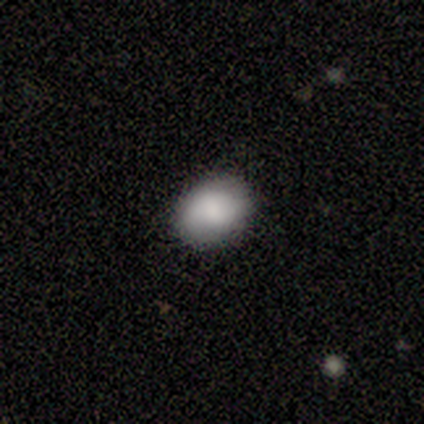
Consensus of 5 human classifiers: Smooth or featured? smooth (80%)
How rounded? in between (100%)
Merging? none (100%)